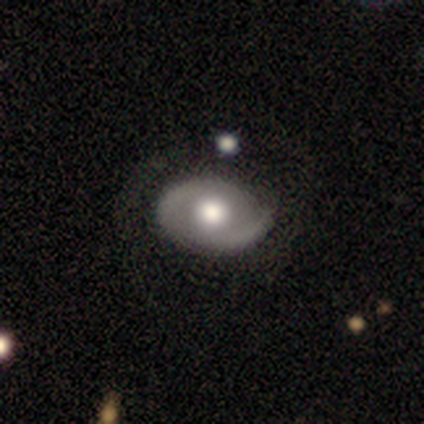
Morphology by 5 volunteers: A featured or disk galaxy (80%) with no bar (75%), 2 (100%) tight (50%, tied with medium) spiral arms (50%, tied with no) and a moderate central bulge (75%). Merging: none (80%).